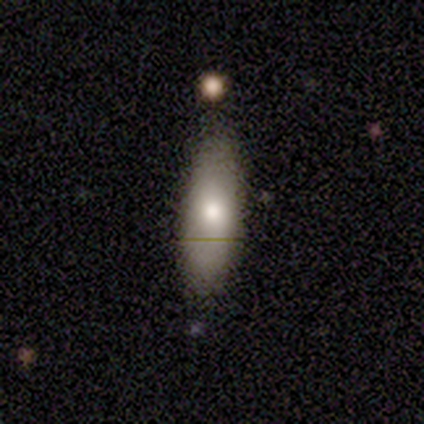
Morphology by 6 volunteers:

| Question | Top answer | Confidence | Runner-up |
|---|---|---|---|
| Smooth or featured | smooth | 83% | featured or disk (17%) |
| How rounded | cigar-shaped | 60% | in between (40%) |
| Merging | none | 83% | minor disturbance (17%) |